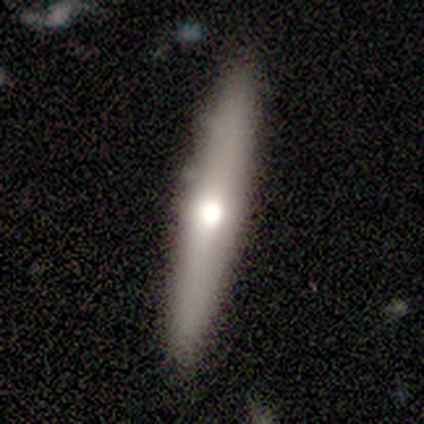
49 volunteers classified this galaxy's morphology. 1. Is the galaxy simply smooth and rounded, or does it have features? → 47% smooth (tied), 47% featured or disk (tied), 6% star or artifact.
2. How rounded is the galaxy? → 87% cigar-shaped, 9% round, 4% in between.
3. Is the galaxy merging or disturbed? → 89% none, 7% minor disturbance, 4% merger, 0% major disturbance.